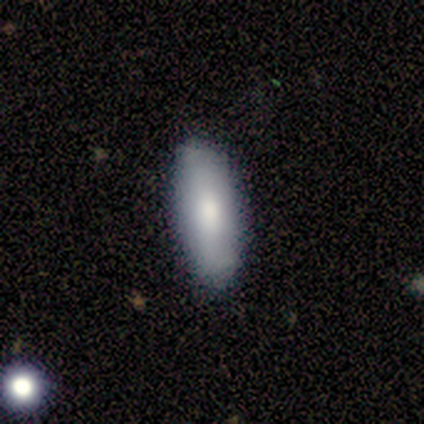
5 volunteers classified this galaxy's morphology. A smooth galaxy with no disk features (80%) that is in between round and cigar-shaped (100%). Merging: none (80%).